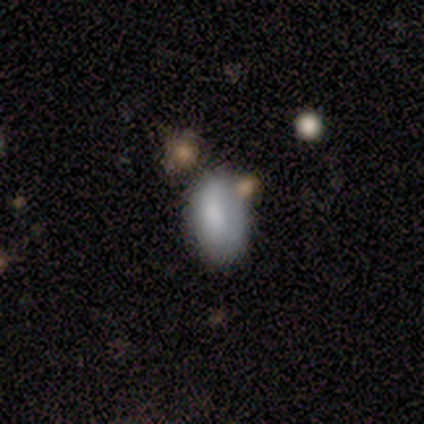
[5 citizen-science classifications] Smooth or featured? smooth (100%)
How rounded? in between (80%)
Merging? none (60%)